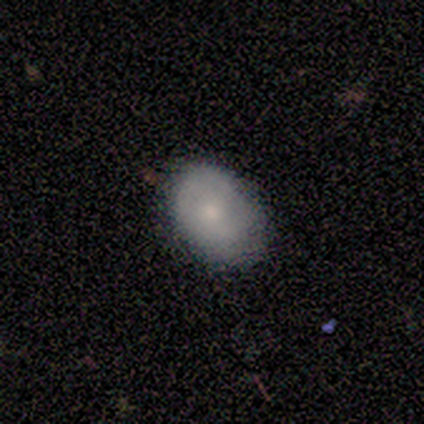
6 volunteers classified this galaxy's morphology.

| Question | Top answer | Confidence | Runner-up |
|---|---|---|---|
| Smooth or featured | smooth | 100% | — |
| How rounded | round | 50% | tied: in between (50%) |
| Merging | none | 67% | minor disturbance (33%) |